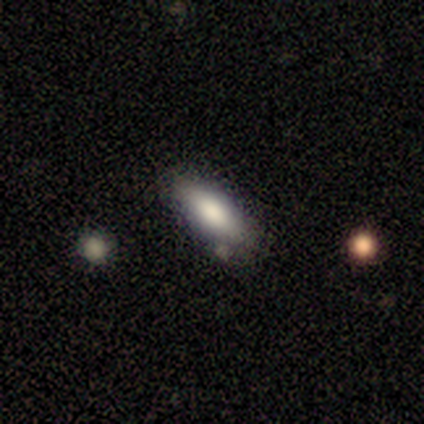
Smooth or featured: smooth — 81% (featured or disk — 16%)
How rounded: in between — 73% (cigar-shaped — 27%)
Merging: none — 78% (minor disturbance — 14%)